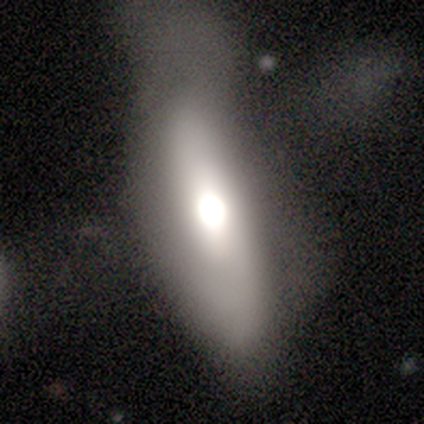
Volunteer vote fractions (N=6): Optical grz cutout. It shows a smooth galaxy with no disk features (83%) that is in between round and cigar-shaped (40%, tied with cigar-shaped). Merging: none (33%, tied with minor disturbance and major disturbance).